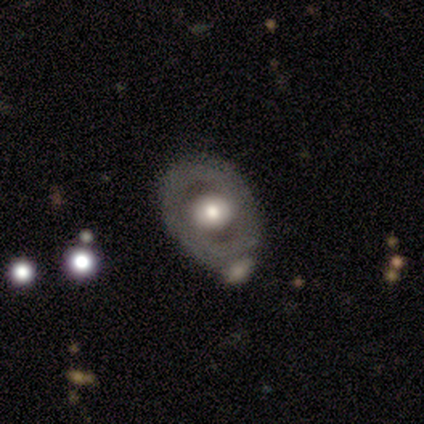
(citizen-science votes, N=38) A featured or disk galaxy (61%) with no bar (73%), no spiral arms (73%) and a large central bulge (45%, tied with moderate).

Vote fractions:
- Smooth or featured? featured or disk: 61% / smooth: 39% / star or artifact: 0%
- Edge-on disk? no: 96% / yes: 4%
- Bar? no: 73% / weak: 23% / strong: 5%
- Spiral arms? no: 73% / yes: 27%
- Bulge size? large: 45% (tied) / moderate: 45% (tied) / small: 9% / dominant: 0% / none: 0%
- Merging? none: 39% / merger: 13% / minor disturbance: 11% / major disturbance: 3%